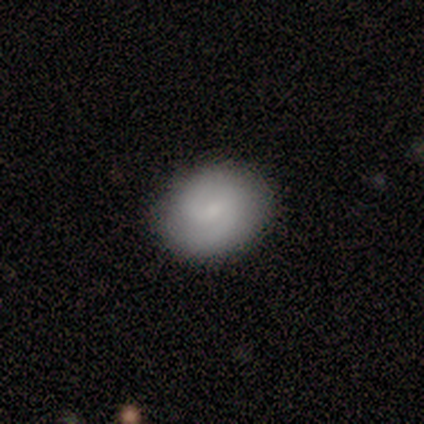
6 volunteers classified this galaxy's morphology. Smooth or featured: featured or disk — 67% (smooth — 33%)
Edge-on disk: no — 100%
Bar: weak — 100%
Spiral arms: yes — 100%
Spiral winding: tight — 50% (tied with medium — 50%)
Spiral arm count: 2 — 100%
Bulge size: moderate — 50% (tied with small — 50%)
Merging: none — 100%